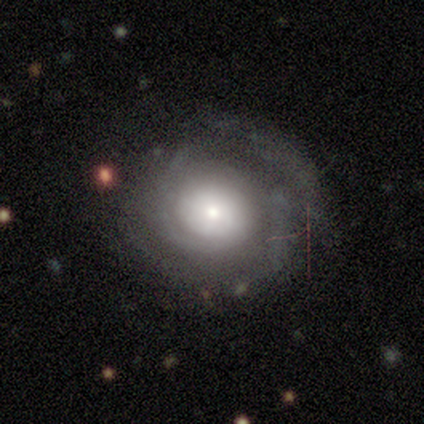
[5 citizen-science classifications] Smooth or featured? 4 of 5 (80%) said featured or disk. Edge-on disk? 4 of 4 (100%) said no. Bar? 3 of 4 (75%) said no. Spiral arms? 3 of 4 (75%) said yes. Spiral winding? 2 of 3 (67%) said tight. Spiral arm count? 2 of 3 (67%) said 1. Bulge size? 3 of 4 (75%) said small. Merging? 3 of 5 (60%) said none.